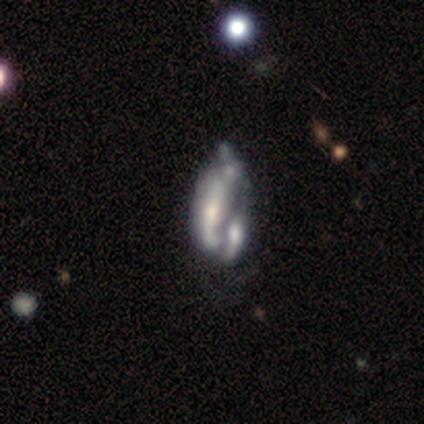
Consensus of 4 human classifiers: Q: Smooth or featured?
A: featured or disk (50%); runner-up: smooth (25%)
Q: Edge-on disk?
A: no (100%)
Q: Bar?
A: no (100%)
Q: Spiral arms?
A: no (100%)
Q: Bulge size?
A: moderate (50%); tied with: small (50%)
Q: Merging?
A: merger (100%)